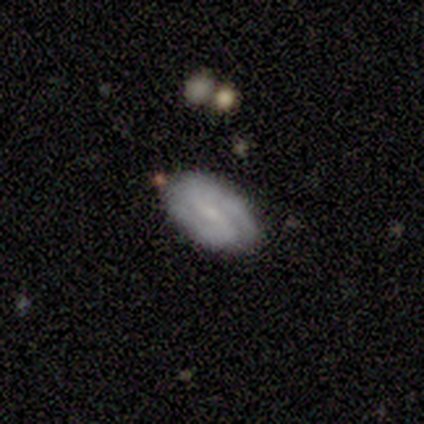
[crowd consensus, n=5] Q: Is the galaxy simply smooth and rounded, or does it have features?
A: featured or disk — 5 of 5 (100%).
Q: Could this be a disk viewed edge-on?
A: no — 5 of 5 (100%).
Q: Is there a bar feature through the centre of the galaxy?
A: strong — 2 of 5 (40%, tied with weak).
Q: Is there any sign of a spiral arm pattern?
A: yes — 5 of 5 (100%).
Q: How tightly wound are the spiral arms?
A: medium — 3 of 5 (60%).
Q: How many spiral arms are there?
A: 2 — 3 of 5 (60%).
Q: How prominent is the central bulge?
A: small — 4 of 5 (80%).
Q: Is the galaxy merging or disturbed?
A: none — 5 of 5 (100%).